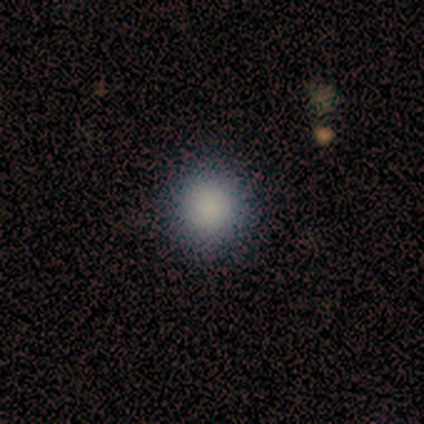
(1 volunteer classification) Smooth or featured: smooth — 100%
How rounded: round — 100%
Merging: none — 100%